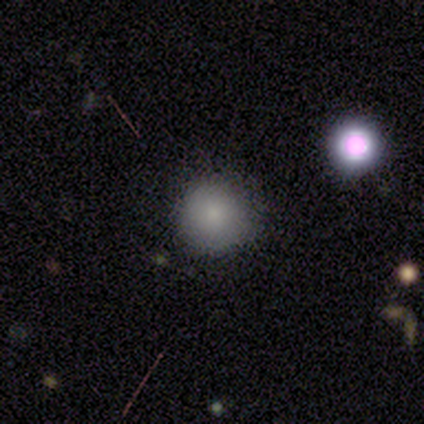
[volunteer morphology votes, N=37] smooth-or-featured: smooth: 81% | star or artifact: 11% | featured or disk: 8%
  how-rounded: round: 97% | in between: 3% | cigar-shaped: 0%
  merging: none: 82% | minor disturbance: 15% | merger: 3% | major disturbance: 0%